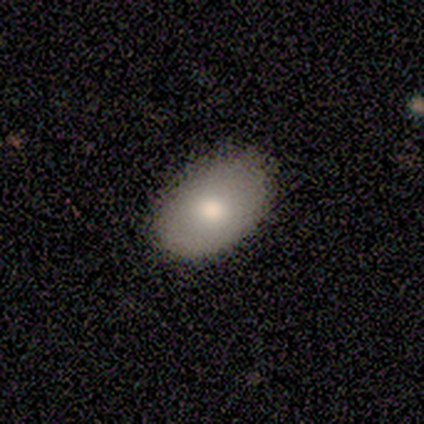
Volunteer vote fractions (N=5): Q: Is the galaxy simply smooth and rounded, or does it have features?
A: smooth — 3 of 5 (60%).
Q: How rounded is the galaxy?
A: round — 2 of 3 (67%).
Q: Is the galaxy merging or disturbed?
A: none — 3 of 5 (60%).